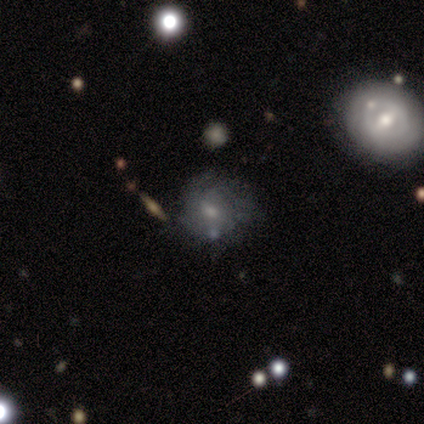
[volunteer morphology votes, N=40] This appears to be a featured or disk galaxy (70%) with no bar (52%), tight (41%) spiral arms (63%) and a moderate central bulge (48%, tied with small). Merging: none (51%).